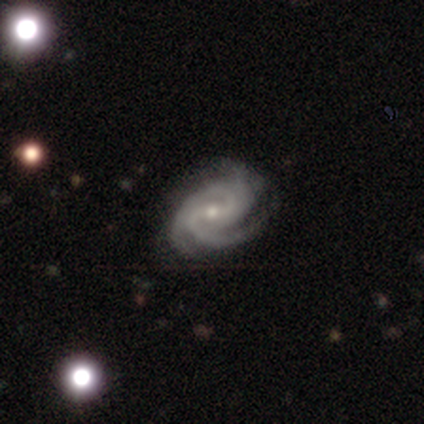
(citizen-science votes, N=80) This appears to be a featured or disk galaxy (95%) with a weak bar (51%), 3 (60%) tight (56%) spiral arms (96%) and a small central bulge (57%). Merging: none (38%).